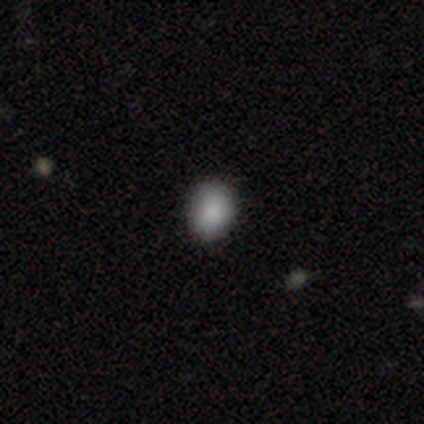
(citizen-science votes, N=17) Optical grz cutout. It shows a smooth galaxy with no disk features (94%) that is in between round and cigar-shaped (69%). Merging: none (81%).